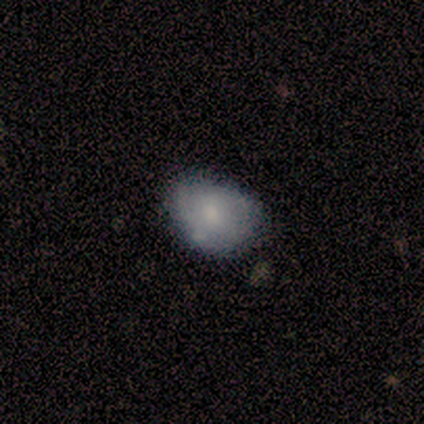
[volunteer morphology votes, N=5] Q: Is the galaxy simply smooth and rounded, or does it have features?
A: smooth — 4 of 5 (80%).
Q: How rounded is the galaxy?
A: in between — 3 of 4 (75%).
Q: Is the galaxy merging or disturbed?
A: none — 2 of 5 (40%, tied with minor disturbance).